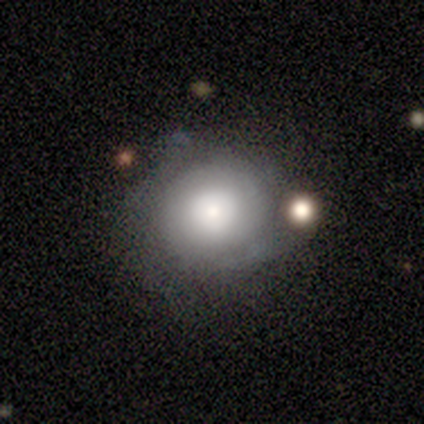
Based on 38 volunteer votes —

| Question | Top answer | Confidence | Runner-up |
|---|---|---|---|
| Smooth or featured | smooth | 53% | featured or disk (42%) |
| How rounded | round | 85% | in between (15%) |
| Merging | none | 56% | minor disturbance (22%) |